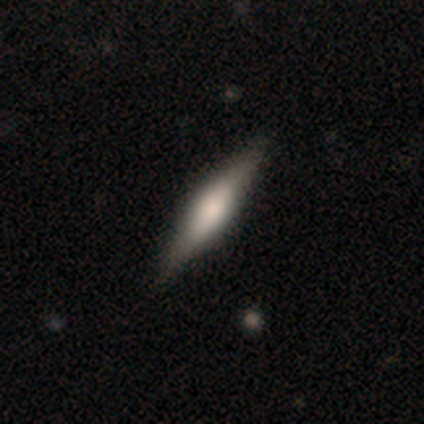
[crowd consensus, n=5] featured or disk 60%, smooth 20%, star or artifact 20%. Down the decision tree: edge-on disk — yes (100%); edge-on bulge — boxy (67%); merging — none (75%).